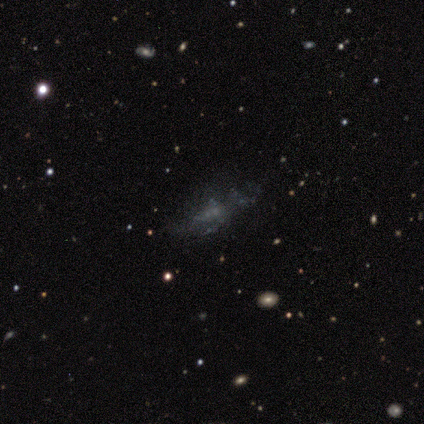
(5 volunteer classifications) Overall: featured or disk (60%; star or artifact 40%). Edge-on disk: no (100%). Bar: no (100%). Spiral arms: no (100%). Bulge size: none (100%). Merging: none (67%; major disturbance 33%).